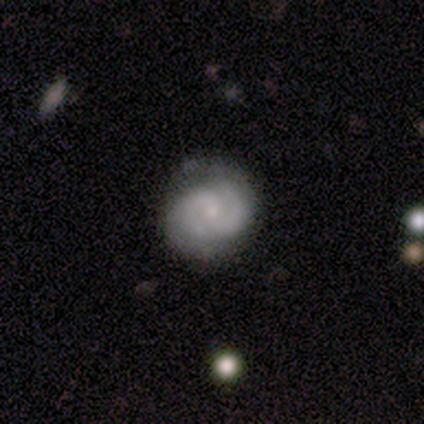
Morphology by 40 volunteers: type=featured or disk (85%); edge-on=no (100%); bar=no (59%); spiral arms=yes (88%); winding=tight (63%); arm count=2 (83%); bulge=small (71%); merging=none (62%).